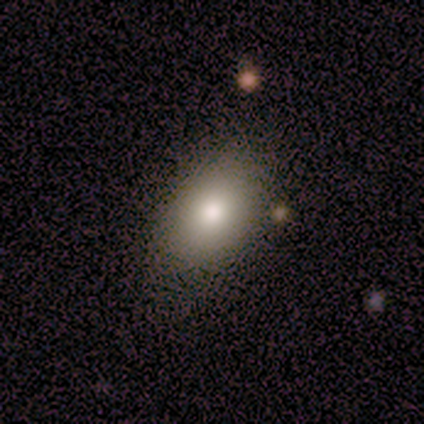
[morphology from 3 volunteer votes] Overall: smooth (67%; featured or disk 33%). How rounded: in between (100%). Merging: none (67%; minor disturbance 33%).